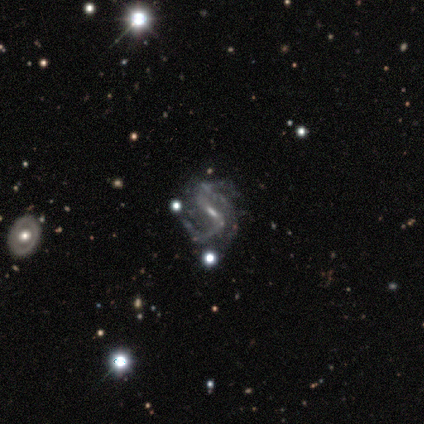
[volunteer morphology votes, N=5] Smooth or featured? 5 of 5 (100%) said featured or disk. Edge-on disk? 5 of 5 (100%) said no. Bar? 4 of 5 (80%) said weak. Spiral arms? 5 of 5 (100%) said yes. Spiral winding? 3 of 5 (60%) said loose. Spiral arm count? 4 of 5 (80%) said 2. Bulge size? 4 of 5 (80%) said small. Merging? 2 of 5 (40%, tied with major disturbance) said none.